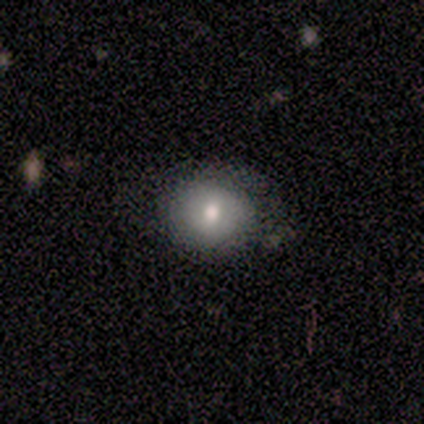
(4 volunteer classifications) A smooth galaxy with no disk features (75%) that is round (67%).

Vote fractions:
- Smooth or featured? smooth: 75% / featured or disk: 25% / star or artifact: 0%
- How rounded? round: 67% / in between: 33% / cigar-shaped: 0%
- Merging? none: 75% / minor disturbance: 25% / major disturbance: 0% / merger: 0%